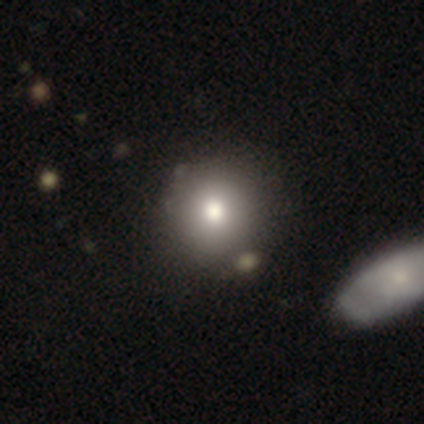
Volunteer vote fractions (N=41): smooth 90%, featured or disk 10%, star or artifact 0%. Down the decision tree: how rounded — round (95%); merging — none (59%).